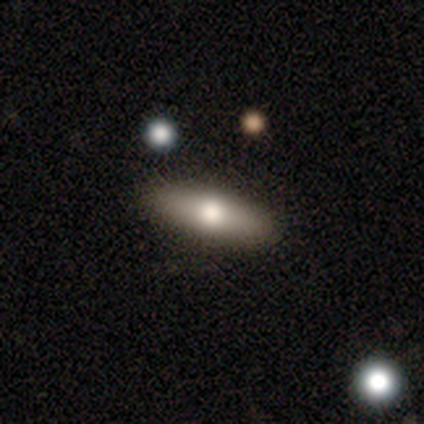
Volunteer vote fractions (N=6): This is likely a smooth galaxy (67%). How rounded: likely cigar-shaped (75%). Merging: clearly none (100%).